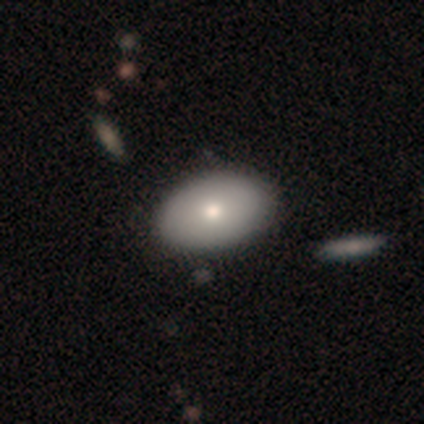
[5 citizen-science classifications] smooth-or-featured: smooth: 100% | featured or disk: 0% | star or artifact: 0%
  how-rounded: in between: 100% | round: 0% | cigar-shaped: 0%
  merging: none: 60% | minor disturbance: 40% | major disturbance: 0% | merger: 0%